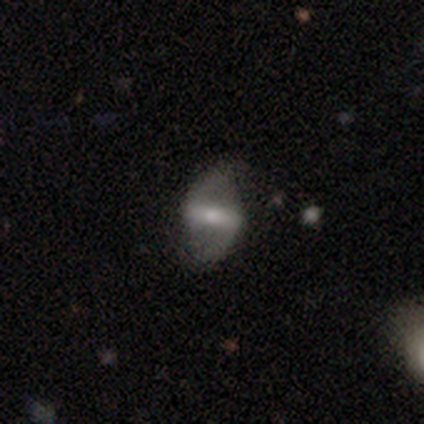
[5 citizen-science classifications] Q: Smooth or featured?
A: featured or disk (80%); runner-up: star or artifact (20%)
Q: Edge-on disk?
A: no (75%); runner-up: yes (25%)
Q: Bar?
A: strong (67%); runner-up: weak (33%)
Q: Spiral arms?
A: yes (100%)
Q: Spiral winding?
A: loose (100%)
Q: Spiral arm count?
A: 2 (100%)
Q: Bulge size?
A: large (33%); tied with: moderate (33%); small (33%)
Q: Merging?
A: none (100%)